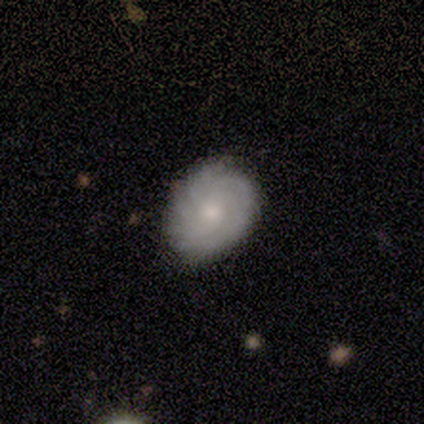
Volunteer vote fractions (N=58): A featured or disk galaxy (71%) with no bar (85%), more than 4 (43%) tight (70%) spiral arms (77%) and a moderate central bulge (54%).

Vote fractions:
- Smooth or featured? featured or disk: 71% / smooth: 26% / star or artifact: 3%
- Edge-on disk? no: 95% / yes: 5%
- Bar? no: 85% / weak: 13% / strong: 3%
- Spiral arms? yes: 77% / no: 23%
- Spiral winding? tight: 70% / medium: 23% / loose: 7%
- Spiral arm count? more than 4: 43% / can't tell: 37% / 2: 7% / 3: 7% / 4: 7% / 1: 0%
- Bulge size? moderate: 54% / small: 41% / large: 5% / dominant: 0% / none: 0%
- Merging? none: 79% / minor disturbance: 20% / merger: 2% / major disturbance: 0%